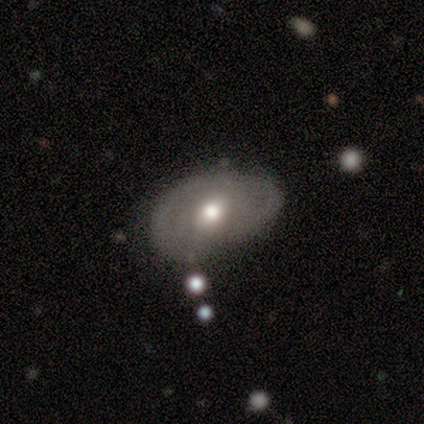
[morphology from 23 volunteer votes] A featured or disk galaxy (52%) with a weak bar (50%), no spiral arms (67%) and a moderate central bulge (83%).

Vote fractions:
- Smooth or featured? featured or disk: 52% / smooth: 30% / star or artifact: 17%
- Edge-on disk? no: 100% / yes: 0%
- Bar? weak: 50% / no: 42% / strong: 8%
- Spiral arms? no: 67% / yes: 33%
- Bulge size? moderate: 83% / large: 8% / small: 8% / dominant: 0% / none: 0%
- Merging? none: 63% / minor disturbance: 21% / major disturbance: 11% / merger: 5%